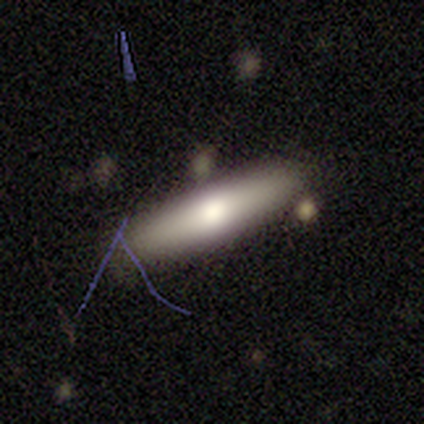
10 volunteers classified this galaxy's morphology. Overall: smooth (40%, tied with star or artifact). How rounded: cigar-shaped (75%). Merging: none (33%, tied with minor disturbance).